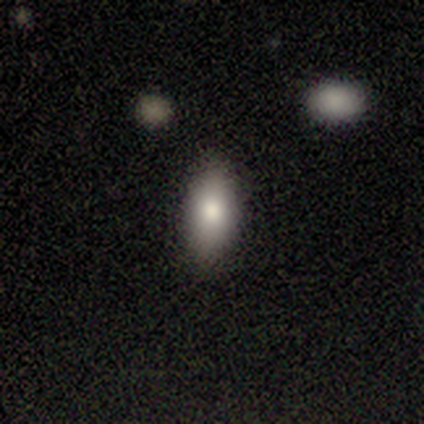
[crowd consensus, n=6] Morphology: type=smooth (67%); roundness=in between (50%, tied with cigar-shaped); merging=none (80%).